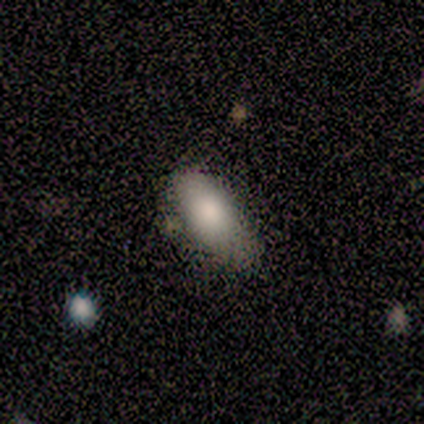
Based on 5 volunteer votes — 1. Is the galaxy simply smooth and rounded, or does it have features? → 80% smooth, 20% featured or disk, 0% star or artifact.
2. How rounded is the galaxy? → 50% in between (tied), 50% cigar-shaped (tied), 0% round.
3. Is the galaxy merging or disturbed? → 80% none, 20% merger, 0% minor disturbance, 0% major disturbance.